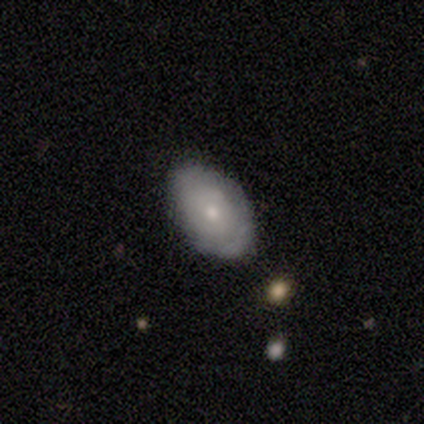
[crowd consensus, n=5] A featured or disk galaxy (60%) with no bar (100%), no spiral arms (100%) and a small central bulge (100%).

Vote fractions:
- Smooth or featured? featured or disk: 60% / smooth: 40% / star or artifact: 0%
- Edge-on disk? no: 100% / yes: 0%
- Bar? no: 100% / strong: 0% / weak: 0%
- Spiral arms? no: 100% / yes: 0%
- Bulge size? small: 100% / dominant: 0% / large: 0% / moderate: 0% / none: 0%
- Merging? none: 100% / minor disturbance: 0% / major disturbance: 0% / merger: 0%